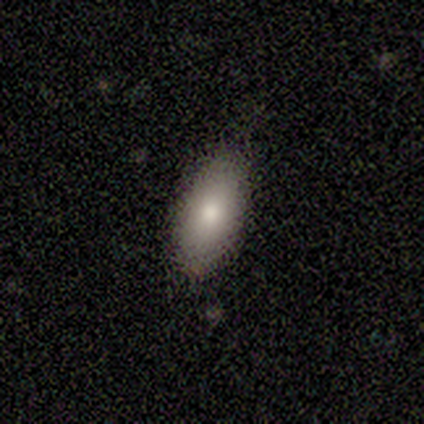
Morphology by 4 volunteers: smooth-or-featured: smooth: 50% (tied) | featured or disk: 50% (tied) | star or artifact: 0%
  how-rounded: in between: 100% | round: 0% | cigar-shaped: 0%
  merging: none: 75% | minor disturbance: 25% | major disturbance: 0% | merger: 0%